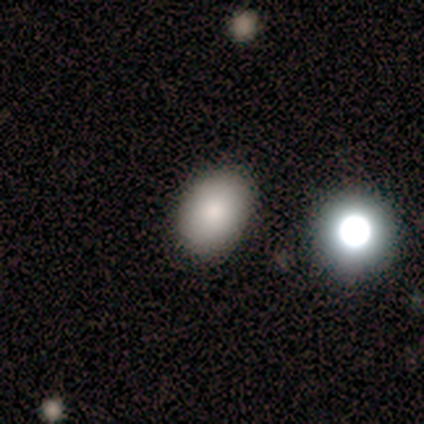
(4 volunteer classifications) Smooth or featured?
  - smooth: 100% *
  - featured or disk: 0%
  - star or artifact: 0%
How rounded?
  - in between: 75% *
  - round: 25%
  - cigar-shaped: 0%
Merging?
  - none: 75% *
  - minor disturbance: 25%
  - major disturbance: 0%
  - merger: 0%